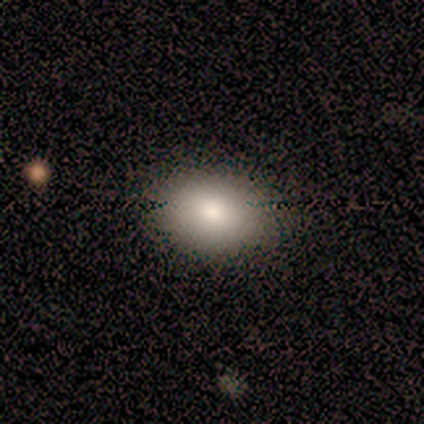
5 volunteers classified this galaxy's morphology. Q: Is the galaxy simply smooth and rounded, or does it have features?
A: smooth — 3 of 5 (60%).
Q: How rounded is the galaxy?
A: round — 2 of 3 (67%).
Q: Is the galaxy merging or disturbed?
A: none — 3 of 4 (75%).